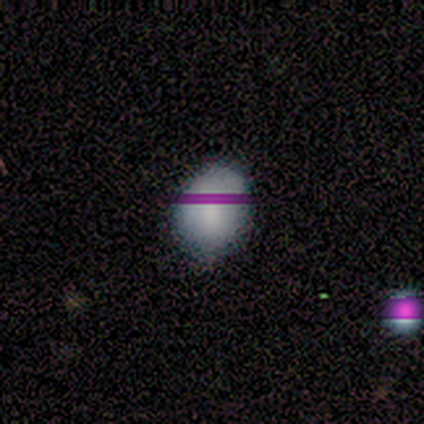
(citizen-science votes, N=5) Smooth or featured?
  - smooth: 100% *
  - featured or disk: 0%
  - star or artifact: 0%
How rounded?
  - in between: 80% *
  - round: 20%
  - cigar-shaped: 0%
Merging?
  - none: 80% *
  - minor disturbance: 20%
  - major disturbance: 0%
  - merger: 0%